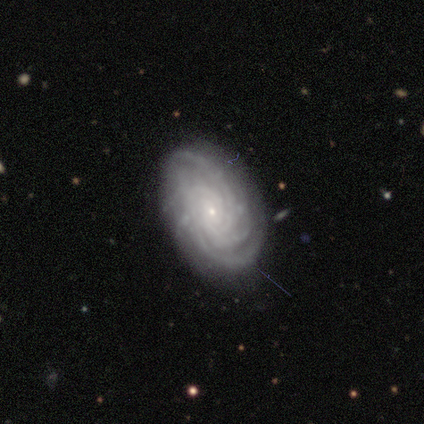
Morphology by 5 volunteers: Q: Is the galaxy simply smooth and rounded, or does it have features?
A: featured or disk — 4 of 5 (80%).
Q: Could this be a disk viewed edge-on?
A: no — 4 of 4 (100%).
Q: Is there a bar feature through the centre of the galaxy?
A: no — 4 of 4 (100%).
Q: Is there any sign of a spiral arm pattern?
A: yes — 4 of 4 (100%).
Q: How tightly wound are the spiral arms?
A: tight — 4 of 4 (100%).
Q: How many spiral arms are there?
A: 4 — 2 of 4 (50%).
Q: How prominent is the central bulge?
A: small — 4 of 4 (100%).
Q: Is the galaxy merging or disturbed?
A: none — 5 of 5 (100%).